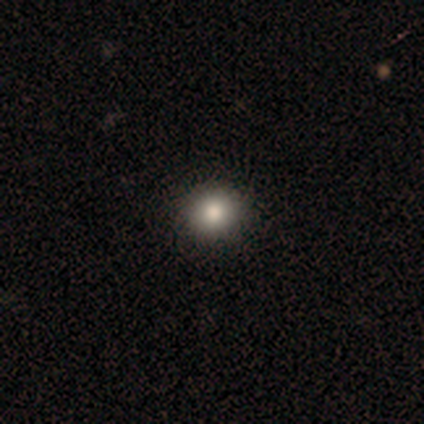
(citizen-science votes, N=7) smooth 86%, star or artifact 14%, featured or disk 0%. Down the decision tree: how rounded — round (100%); merging — none (83%).